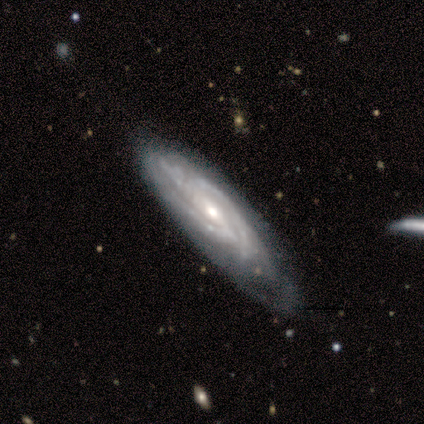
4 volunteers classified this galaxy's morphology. Volunteers were most divided on "spiral arm count": 2: 50%, 3: 25%, can't tell: 25%, 1: 0%, 4: 0%, more than 4: 0%. More confident: smooth or featured — featured or disk (100%); edge-on disk — no (100%); spiral arms — yes (100%); bar — weak (75%); spiral winding — tight (75%); bulge size — small (75%); merging — minor disturbance (75%).